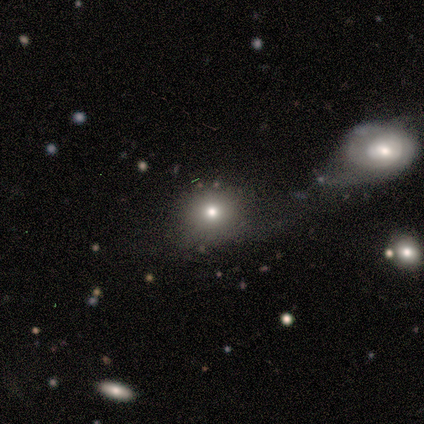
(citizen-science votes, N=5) smooth-or-featured: smooth: 80% | star or artifact: 20% | featured or disk: 0%
  how-rounded: round: 50% (tied) | in between: 50% (tied) | cigar-shaped: 0%
  merging: none: 75% | minor disturbance: 25% | major disturbance: 0% | merger: 0%